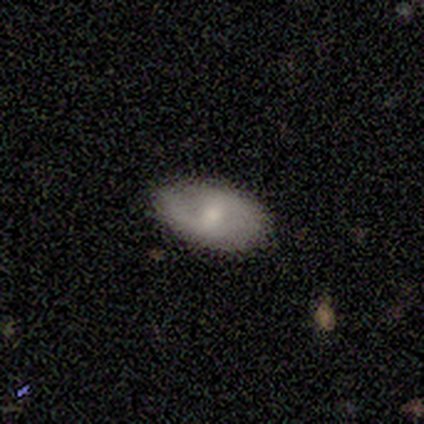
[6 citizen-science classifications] A smooth galaxy with no disk features (50%, tied with featured or disk) that is in between round and cigar-shaped (100%). Merging: none (83%).